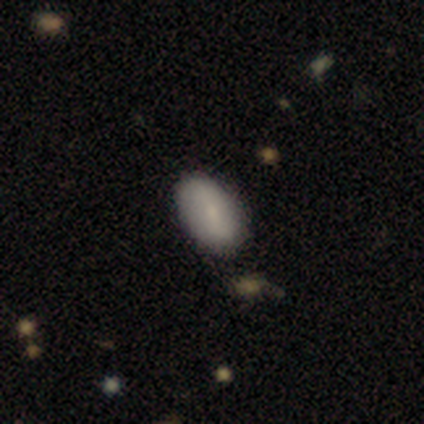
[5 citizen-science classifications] This is clearly a smooth galaxy (80%). How rounded: possibly round (50%, tied with in between). Merging: clearly none (100%).